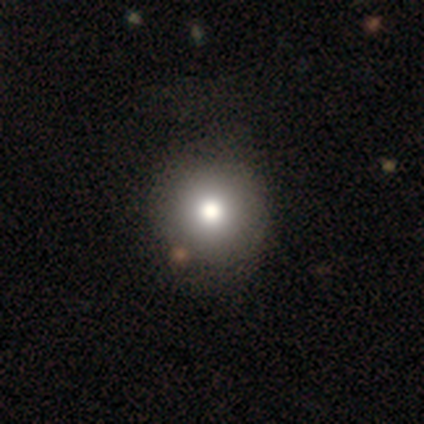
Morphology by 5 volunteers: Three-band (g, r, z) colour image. It shows a smooth galaxy with no disk features (60%) that is round (100%). Merging: none (80%).